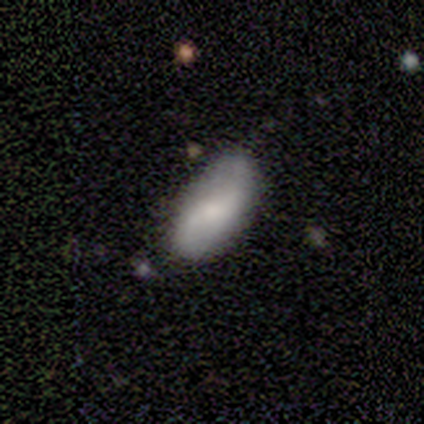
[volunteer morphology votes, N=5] Smooth or featured? smooth (40%, tied with featured or disk)
How rounded? in between (100%)
Merging? none (100%)